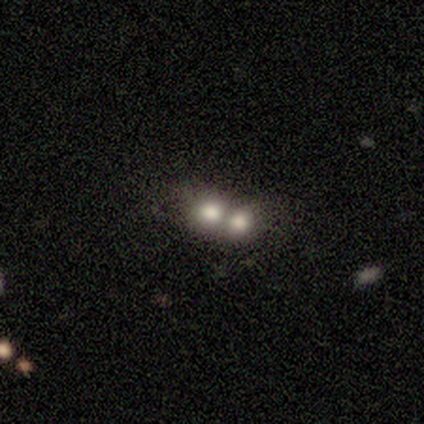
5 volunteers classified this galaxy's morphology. Smooth or featured?
  - smooth: 40% * (tied)
  - star or artifact: 40% * (tied)
  - featured or disk: 20%
How rounded?
  - round: 100% *
  - in between: 0%
  - cigar-shaped: 0%
Merging?
  - merger: 100% *
  - none: 0%
  - minor disturbance: 0%
  - major disturbance: 0%